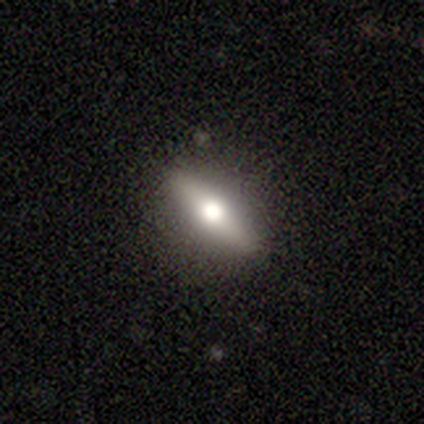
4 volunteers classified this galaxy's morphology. Q: Smooth or featured?
A: smooth (75%); runner-up: featured or disk (25%)
Q: How rounded?
A: cigar-shaped (67%); runner-up: in between (33%)
Q: Merging?
A: none (100%)